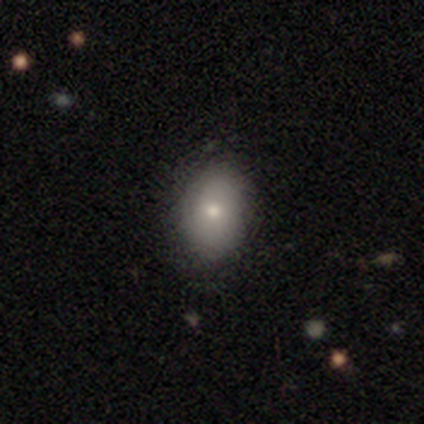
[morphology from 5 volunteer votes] Smooth or featured? smooth (60%)
How rounded? in between (67%)
Merging? none (75%)